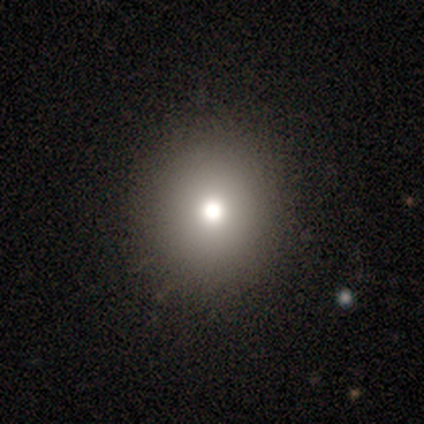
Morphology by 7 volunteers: This is clearly a smooth galaxy (86%). How rounded: likely round (67%). Merging: clearly none (83%).